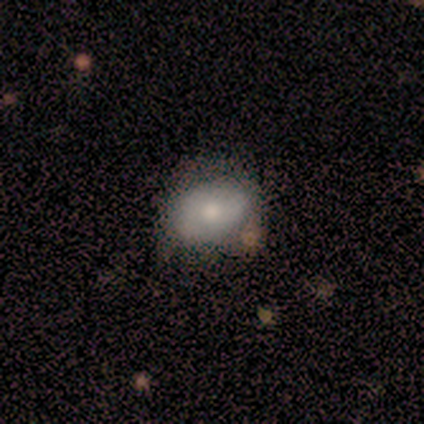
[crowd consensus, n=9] smooth-or-featured: smooth: 78% | featured or disk: 11% | star or artifact: 11%
  how-rounded: in between: 57% | round: 43% | cigar-shaped: 0%
  merging: none: 75% | minor disturbance: 25% | major disturbance: 0% | merger: 0%